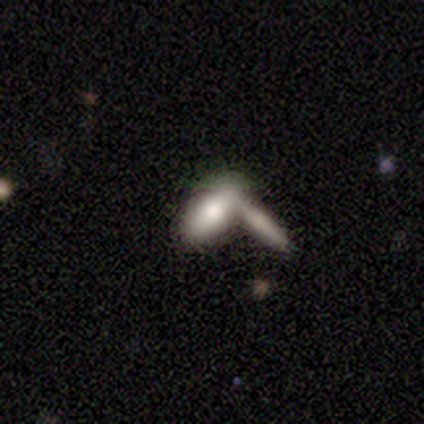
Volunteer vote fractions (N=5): Smooth or featured?
  - smooth: 100% *
  - featured or disk: 0%
  - star or artifact: 0%
How rounded?
  - in between: 80% *
  - cigar-shaped: 20%
  - round: 0%
Merging?
  - merger: 60% *
  - none: 20%
  - minor disturbance: 20%
  - major disturbance: 0%